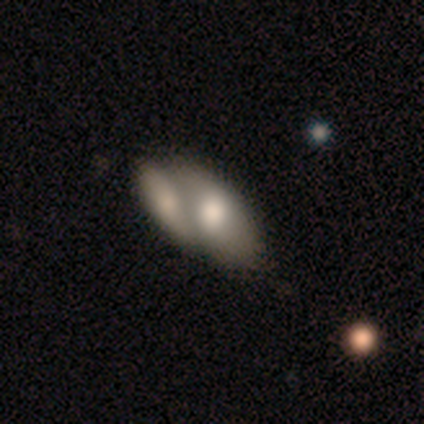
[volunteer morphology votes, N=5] A smooth galaxy with no disk features (40%, tied with featured or disk) that is in between round and cigar-shaped (100%). Merging: merger (75%).